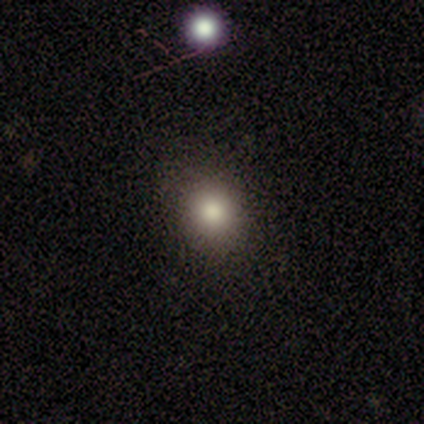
Volunteers were most divided on "how rounded": round: 75%, in between: 25%, cigar-shaped: 0%. More confident: smooth or featured — smooth (100%); merging — none (100%).